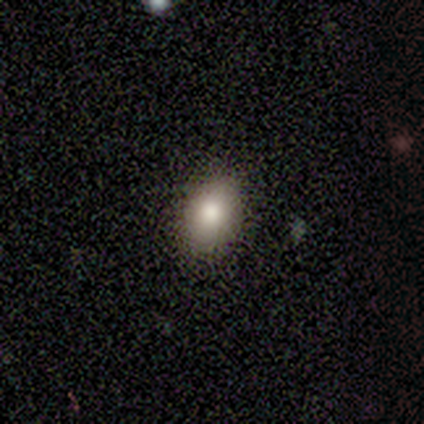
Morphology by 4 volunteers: This appears to be a smooth galaxy with no disk features (100%) that is in between round and cigar-shaped (75%). Merging: none (100%).